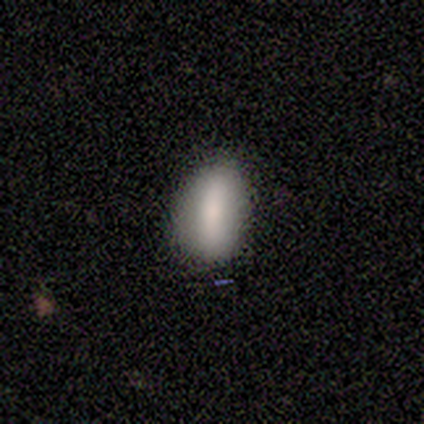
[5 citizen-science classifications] smooth-or-featured: smooth: 60% | featured or disk: 40% | star or artifact: 0%
  how-rounded: in between: 67% | cigar-shaped: 33% | round: 0%
  merging: none: 60% | minor disturbance: 40% | major disturbance: 0% | merger: 0%